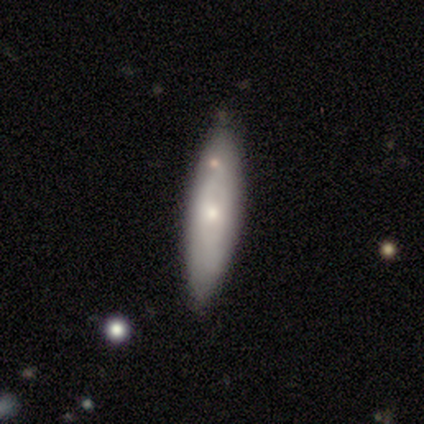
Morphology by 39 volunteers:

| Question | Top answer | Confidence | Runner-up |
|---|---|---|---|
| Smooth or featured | smooth | 54% | featured or disk (44%) |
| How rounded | cigar-shaped | 67% | in between (33%) |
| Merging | none | 66% | minor disturbance (21%) |